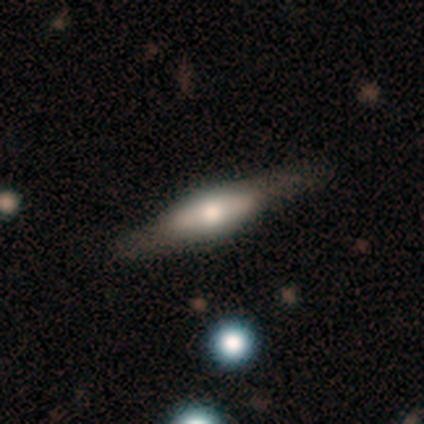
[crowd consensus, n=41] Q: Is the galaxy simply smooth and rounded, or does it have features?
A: featured or disk — 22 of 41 (54%).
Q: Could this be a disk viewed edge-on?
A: yes — 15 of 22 (68%).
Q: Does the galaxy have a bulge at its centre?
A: rounded — 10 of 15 (67%).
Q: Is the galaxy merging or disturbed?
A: none — 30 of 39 (77%).